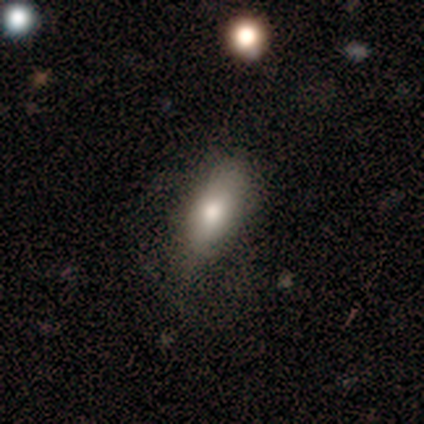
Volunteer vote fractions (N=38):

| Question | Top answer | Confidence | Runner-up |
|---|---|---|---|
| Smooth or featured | smooth | 71% | featured or disk (21%) |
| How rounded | in between | 74% | cigar-shaped (26%) |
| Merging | minor disturbance | 46% | none (40%) |